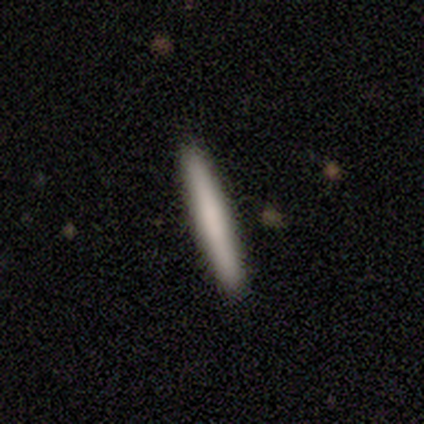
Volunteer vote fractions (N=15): A smooth galaxy with no disk features (73%) that is cigar-shaped (100%).

Vote fractions:
- Smooth or featured? smooth: 73% / featured or disk: 13% / star or artifact: 13%
- How rounded? cigar-shaped: 100% / round: 0% / in between: 0%
- Merging? none: 100% / minor disturbance: 0% / major disturbance: 0% / merger: 0%